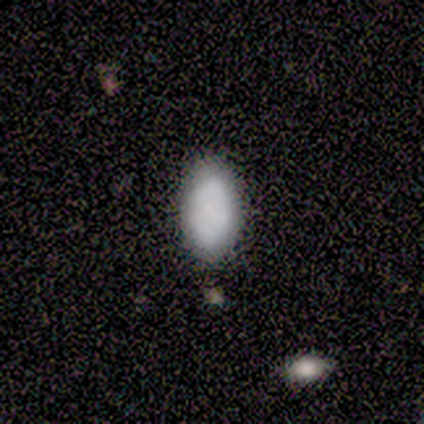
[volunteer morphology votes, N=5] smooth_or_featured: smooth (p=1.00)
how_rounded: in between (p=1.00)
merging: none (p=0.60) [alt: minor disturbance p=0.40]